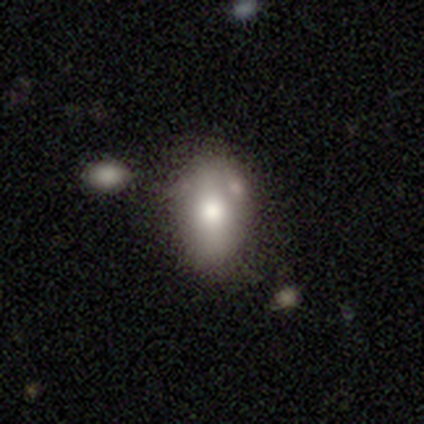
Volunteers were most divided on "merging": none: 58%, minor disturbance: 21%, merger: 15%, major disturbance: 6%. More confident: how rounded — in between (81%); smooth or featured — smooth (73%).